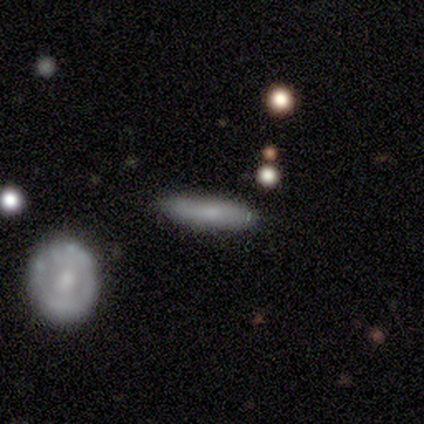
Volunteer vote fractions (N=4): A smooth galaxy with no disk features (75%) that is cigar-shaped (67%). Merging: none (100%).